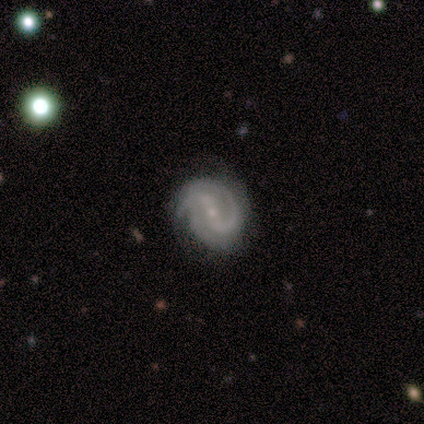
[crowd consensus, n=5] This is clearly a featured or disk galaxy (100%). It is clearly not viewed edge-on (100%). Bar: marginally strong (40%, tied with no). Spiral arm pattern: clearly yes (100%). Spiral arm count: marginally 2 (40%). Spiral winding: clearly tight (80%). Central bulge: clearly small (100%). Merging: clearly none (80%).